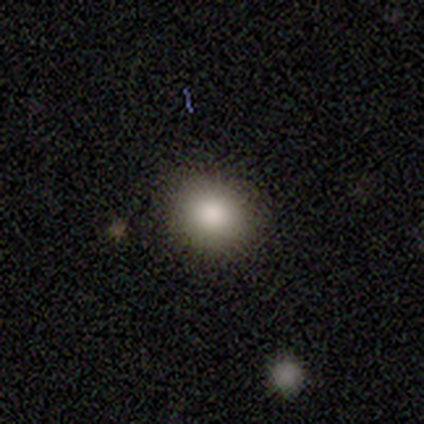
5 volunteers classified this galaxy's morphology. Overall: smooth (80%). How rounded: round (100%). Merging: none (100%).